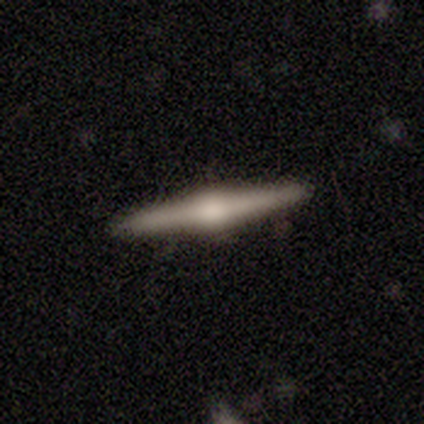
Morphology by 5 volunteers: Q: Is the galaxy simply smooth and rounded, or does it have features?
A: featured or disk — 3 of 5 (60%).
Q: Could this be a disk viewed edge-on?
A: yes — 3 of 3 (100%).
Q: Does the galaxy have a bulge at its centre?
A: rounded — 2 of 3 (67%).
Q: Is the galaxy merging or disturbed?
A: none — 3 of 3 (100%).